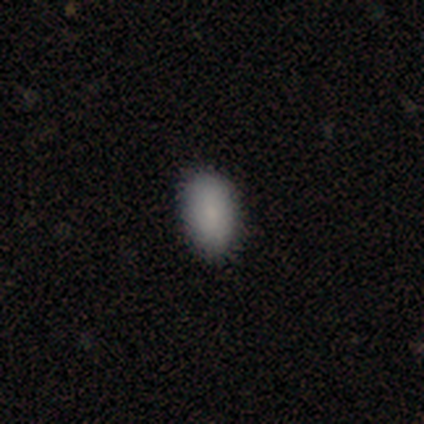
Volunteers were most divided on "merging": none: 60%, minor disturbance: 27%, major disturbance: 13%, merger: 0%. More confident: smooth or featured — smooth (94%); how rounded — in between (80%).